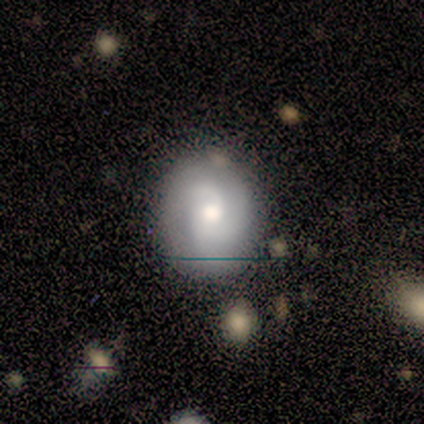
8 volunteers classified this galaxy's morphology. A smooth galaxy with no disk features (50%, tied with featured or disk) that is round (50%, tied with in between). Merging: none (100%).